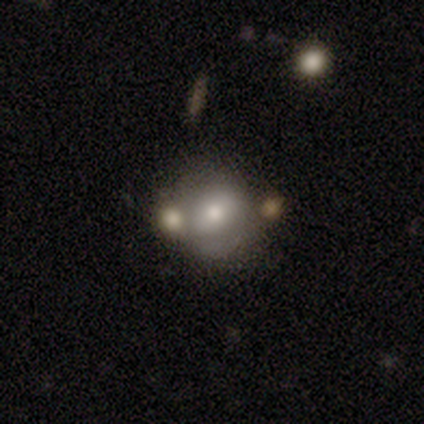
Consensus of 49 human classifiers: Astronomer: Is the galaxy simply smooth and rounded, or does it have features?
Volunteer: smooth — 57%.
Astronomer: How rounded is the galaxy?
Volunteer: round — 71%.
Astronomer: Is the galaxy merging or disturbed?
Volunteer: none — 50%.